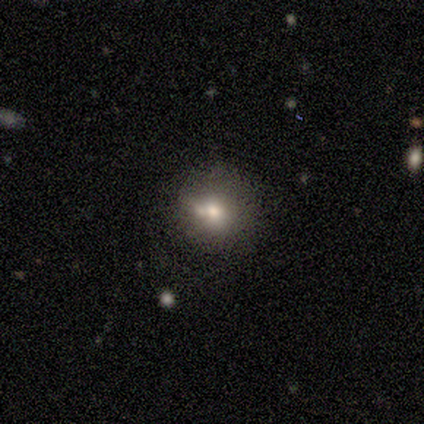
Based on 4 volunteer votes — Volunteers were most divided on "how rounded" (2-way tie): round: 50%, in between: 50%, cigar-shaped: 0%; "merging" (3-way tie): none: 33%, minor disturbance: 33%, merger: 33%, major disturbance: 0%. More confident: smooth or featured — smooth (50%).